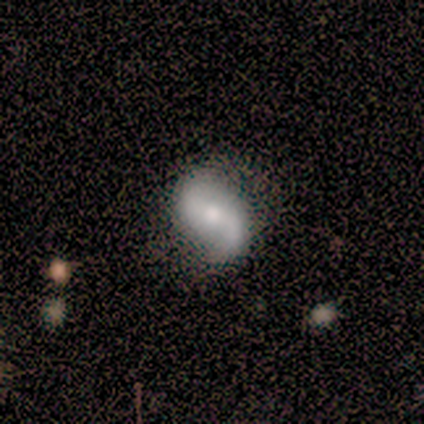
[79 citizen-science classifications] This appears to be a featured or disk galaxy (76%) with no bar (41%), 2 (91%) loose (61%) spiral arms (97%) and a moderate central bulge (46%). Merging: none (71%).